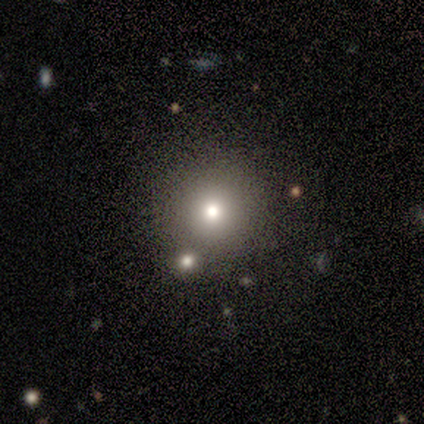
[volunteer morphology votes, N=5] type=smooth (100%); roundness=round (100%); merging=none (100%).